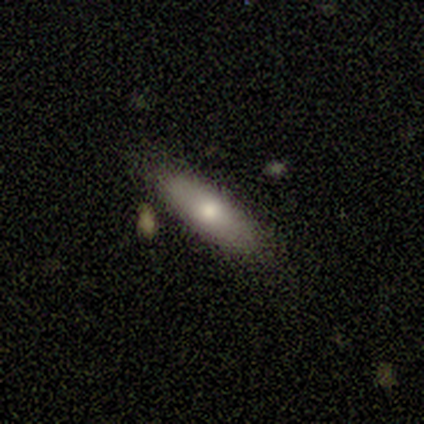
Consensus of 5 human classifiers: Smooth or featured: smooth — 60% (featured or disk — 40%)
How rounded: in between — 100%
Merging: none — 100%